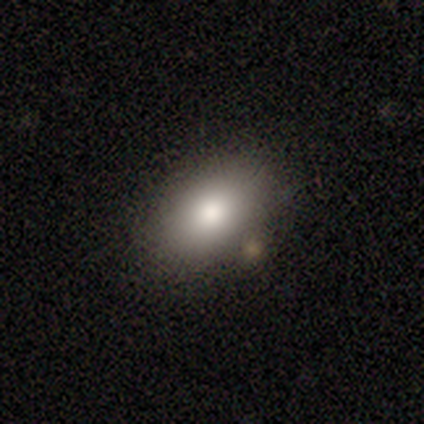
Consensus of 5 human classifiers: smooth 60%, featured or disk 40%, star or artifact 0%. Down the decision tree: how rounded — in between (67%); merging — none (80%).